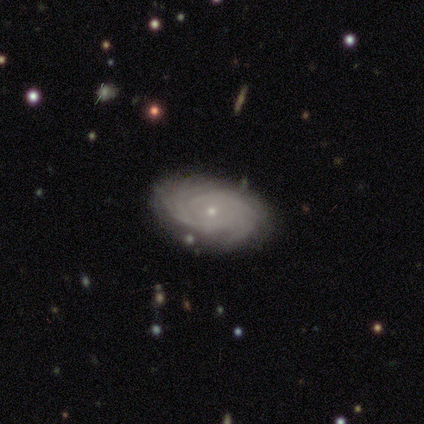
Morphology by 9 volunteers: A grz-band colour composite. It shows a featured or disk galaxy (89%) with no bar (88%), more than 4 (38%) tight (88%) spiral arms (100%) and a small central bulge (88%). Merging: none (100%).